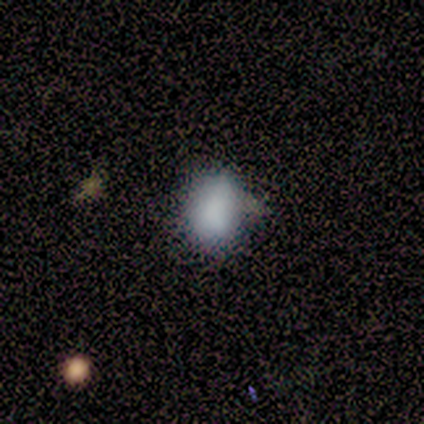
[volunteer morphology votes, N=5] Overall: smooth (80%). How rounded: in between (75%). Merging: minor disturbance (50%; none 25%).